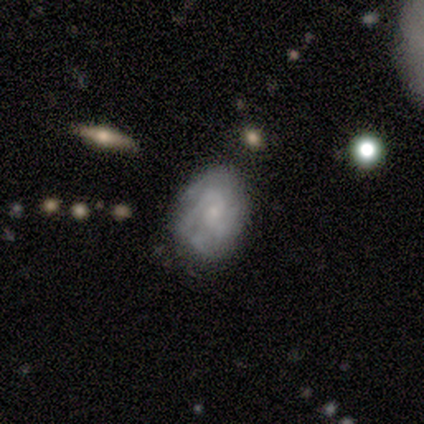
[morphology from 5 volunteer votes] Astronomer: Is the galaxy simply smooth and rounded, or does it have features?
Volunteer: featured or disk — 60% (runner-up: smooth, 40%).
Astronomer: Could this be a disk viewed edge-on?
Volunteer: no — 100%.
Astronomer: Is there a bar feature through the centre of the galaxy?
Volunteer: no — 67%.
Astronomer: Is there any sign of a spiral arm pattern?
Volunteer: yes — 100%.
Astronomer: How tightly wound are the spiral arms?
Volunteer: tight — 100%.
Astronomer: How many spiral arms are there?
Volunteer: can't tell — 67%.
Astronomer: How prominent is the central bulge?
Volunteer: small — 67%.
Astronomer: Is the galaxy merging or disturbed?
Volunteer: none — 60%.